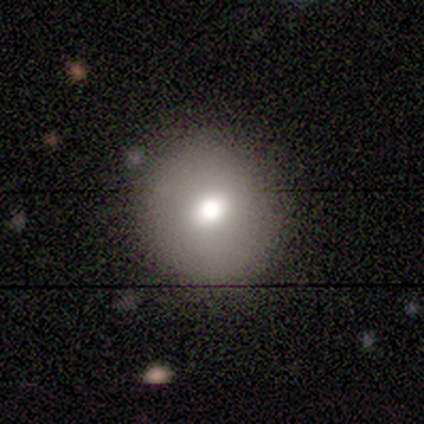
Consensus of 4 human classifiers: A featured or disk galaxy (50%) with a weak bar (50%, tied with no), no spiral arms (100%) and a moderate central bulge (100%). Merging: none (67%).